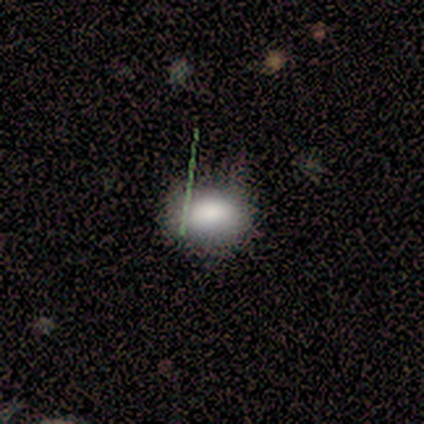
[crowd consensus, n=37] Smooth or featured: smooth — 81% (star or artifact — 14%)
How rounded: in between — 50% (round — 47%)
Merging: none — 59% (minor disturbance — 31%)